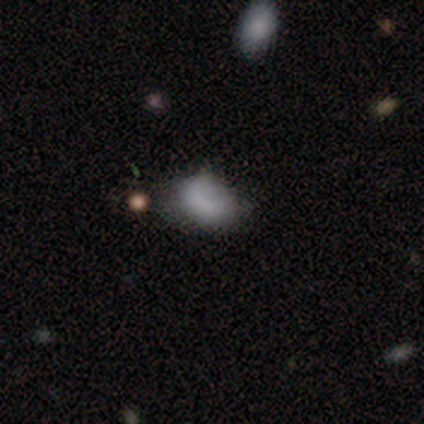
smooth-or-featured: smooth: 100% | featured or disk: 0% | star or artifact: 0%
  how-rounded: in between: 100% | round: 0% | cigar-shaped: 0%
  merging: none: 75% | minor disturbance: 25% | major disturbance: 0% | merger: 0%